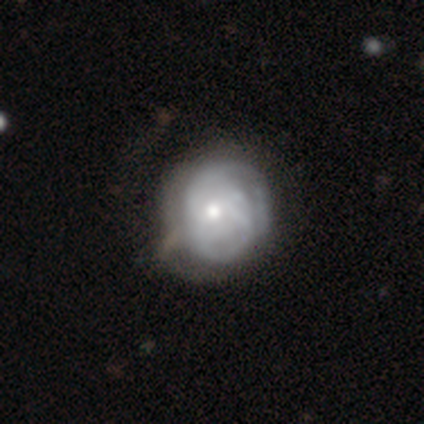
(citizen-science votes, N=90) A featured or disk galaxy (64%) with no bar (73%), tight (64%) spiral arms (65%) and a moderate central bulge (53%). Merging: none (44%).